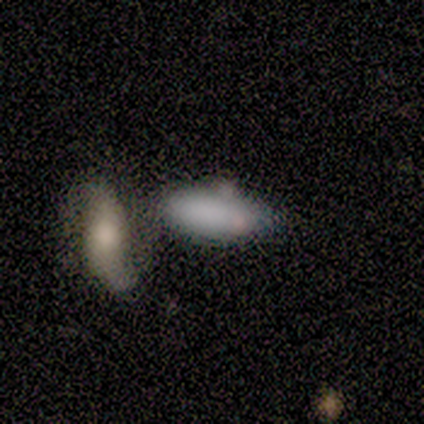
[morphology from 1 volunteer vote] Smooth or featured?
  - smooth: 100% *
  - featured or disk: 0%
  - star or artifact: 0%
How rounded?
  - cigar-shaped: 100% *
  - round: 0%
  - in between: 0%
Merging?
  - none: 100% *
  - minor disturbance: 0%
  - major disturbance: 0%
  - merger: 0%